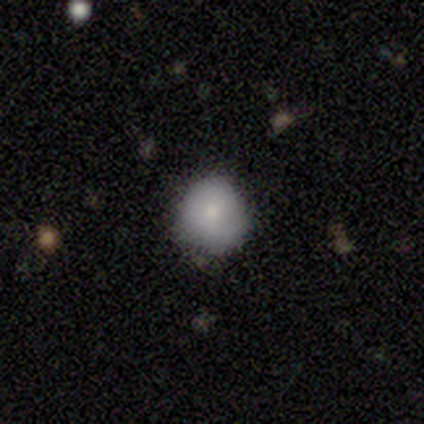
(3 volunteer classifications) This is likely a smooth galaxy (67%). How rounded: clearly round (100%). Merging: clearly none (100%).